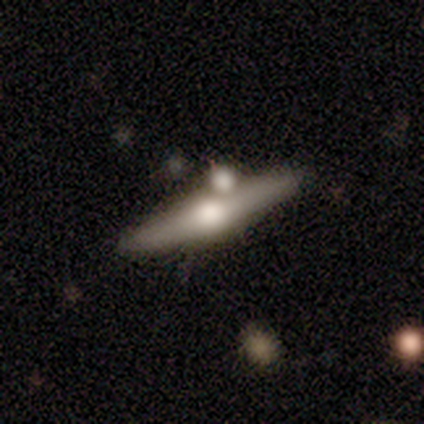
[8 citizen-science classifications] smooth-or-featured: featured or disk: 62% | smooth: 38% | star or artifact: 0%
  disk-edge-on: yes: 100% | no: 0%
    edge-on-bulge: rounded: 100% | boxy: 0% | none: 0%
  merging: none: 50% (tied) | merger: 50% (tied) | minor disturbance: 0% | major disturbance: 0%